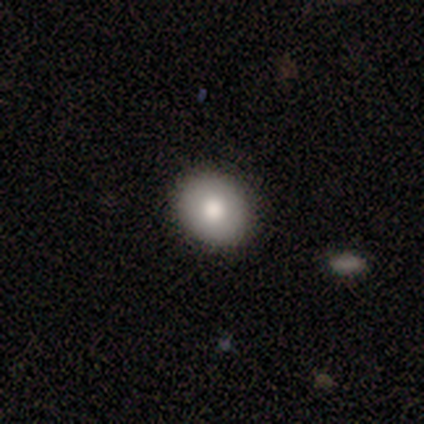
Morphology: type=smooth (80%); roundness=in between (75%); merging=none (100%).